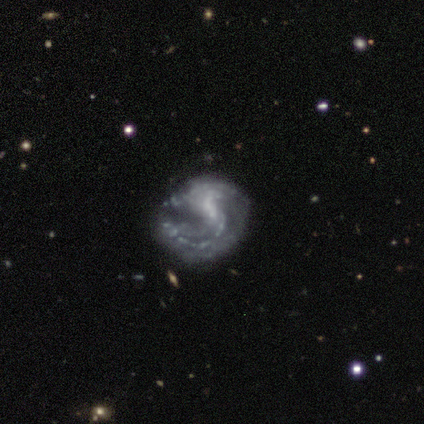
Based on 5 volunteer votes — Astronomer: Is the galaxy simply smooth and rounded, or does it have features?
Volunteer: featured or disk — 100%.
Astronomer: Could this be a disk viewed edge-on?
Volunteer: no — 100%.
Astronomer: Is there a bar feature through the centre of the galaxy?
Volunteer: no — 60%.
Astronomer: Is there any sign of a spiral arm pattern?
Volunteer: yes — 100%.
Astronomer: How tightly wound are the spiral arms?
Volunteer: loose — 80%.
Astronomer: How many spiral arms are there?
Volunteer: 2 — 80%.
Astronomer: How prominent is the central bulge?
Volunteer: none — 80%.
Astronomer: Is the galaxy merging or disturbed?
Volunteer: none — 40%, tied with minor disturbance at 40%.